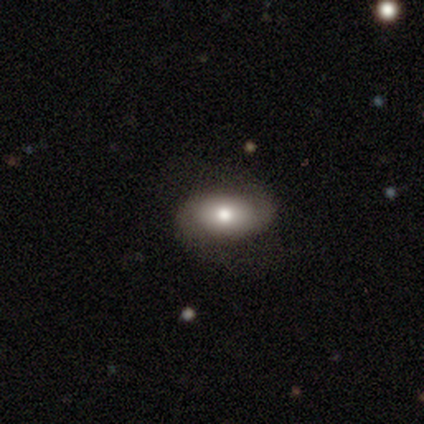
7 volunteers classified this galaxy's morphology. Volunteers were most divided on "spiral winding" (2-way tie): tight: 40%, loose: 40%, medium: 20%. More confident: edge-on disk — no (100%); spiral arms — yes (100%); spiral arm count — 2 (100%); merging — none (86%); bar — no (80%); bulge size — moderate (80%); smooth or featured — featured or disk (71%).